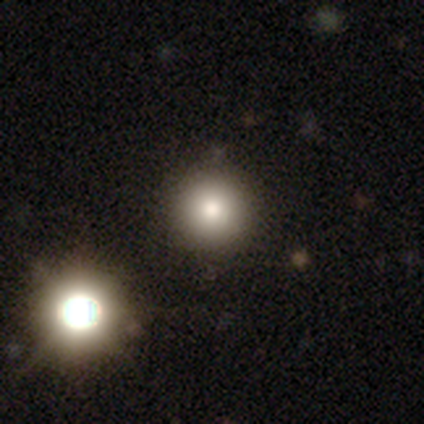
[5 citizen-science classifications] smooth 40% (tied), featured or disk 40% (tied), star or artifact 20%. Down the decision tree: how rounded — round (100%); merging — none (100%).